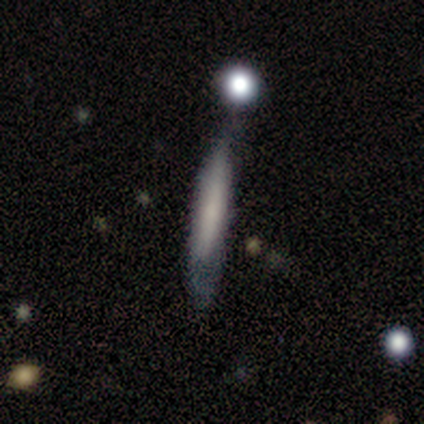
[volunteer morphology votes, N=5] type=smooth (40%, tied with featured or disk); roundness=cigar-shaped (100%); merging=none (50%, tied with minor disturbance).